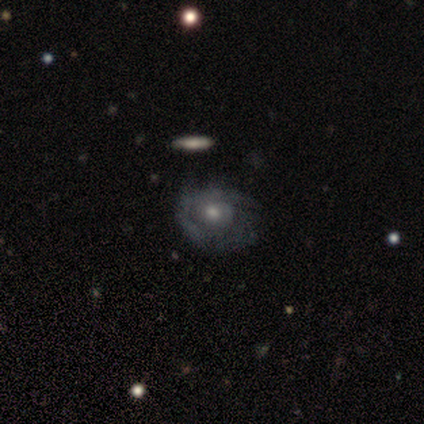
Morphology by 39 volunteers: smooth-or-featured: featured or disk: 74% | smooth: 21% | star or artifact: 5%
  disk-edge-on: no: 97% | yes: 3%
    bar: no: 82% | weak: 14% | strong: 4%
    has-spiral-arms: yes: 57% | no: 43%
      spiral-winding: tight: 56% | medium: 25% | loose: 19%
      spiral-arm-count: can't tell: 56% | 1: 25% | 2: 12% | 3: 6% | 4: 0% | more than 4: 0%
    bulge-size: moderate: 71% | small: 29% | dominant: 0% | large: 0% | none: 0%
  merging: none: 49% | minor disturbance: 32% | major disturbance: 16% | merger: 3%